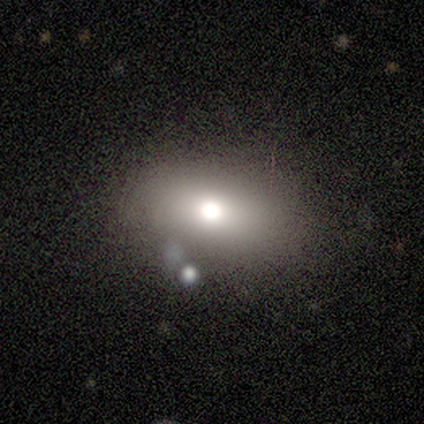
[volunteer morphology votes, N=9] This appears to be a smooth galaxy with no disk features (78%) that is in between round and cigar-shaped (86%). Merging: none (71%).